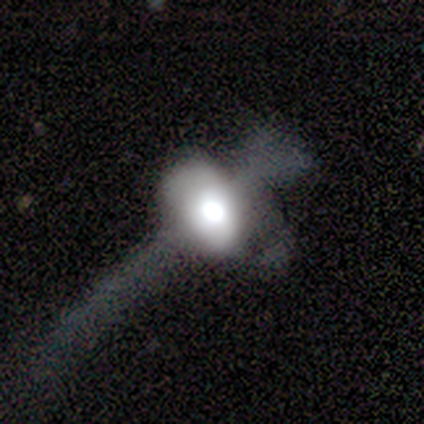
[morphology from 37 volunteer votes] featured or disk 65%, smooth 27%, star or artifact 8%. Down the decision tree: edge-on disk — no (67%); bar — no (88%); spiral arms — no (94%); bulge size — large (44%); merging — major disturbance (56%).